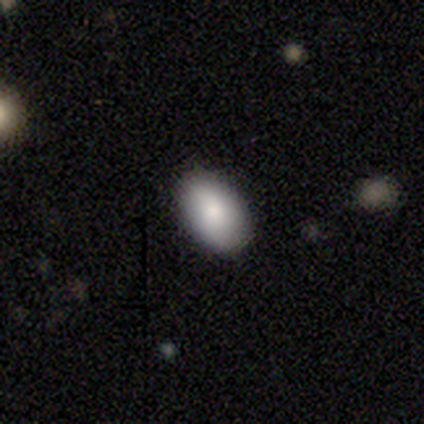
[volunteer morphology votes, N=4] Smooth or featured?
  - smooth: 75% *
  - star or artifact: 25%
  - featured or disk: 0%
How rounded?
  - in between: 100% *
  - round: 0%
  - cigar-shaped: 0%
Merging?
  - none: 100% *
  - minor disturbance: 0%
  - major disturbance: 0%
  - merger: 0%